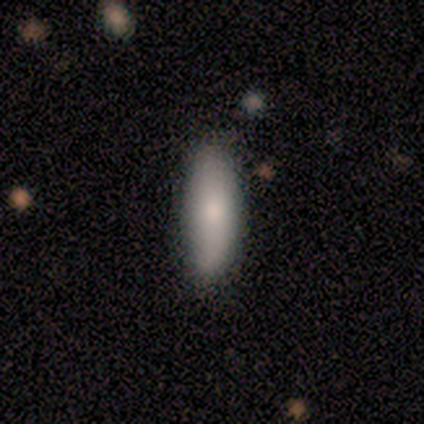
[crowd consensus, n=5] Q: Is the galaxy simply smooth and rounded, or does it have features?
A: smooth — 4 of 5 (80%).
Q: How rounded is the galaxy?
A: cigar-shaped — 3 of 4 (75%).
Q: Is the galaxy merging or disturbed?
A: none — 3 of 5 (60%).